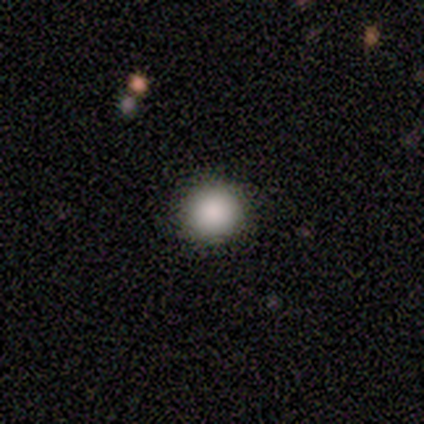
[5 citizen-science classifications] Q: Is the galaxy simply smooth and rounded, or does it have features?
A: smooth — 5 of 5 (100%).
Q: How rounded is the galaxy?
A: round — 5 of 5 (100%).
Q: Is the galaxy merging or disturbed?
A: none — 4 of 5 (80%).